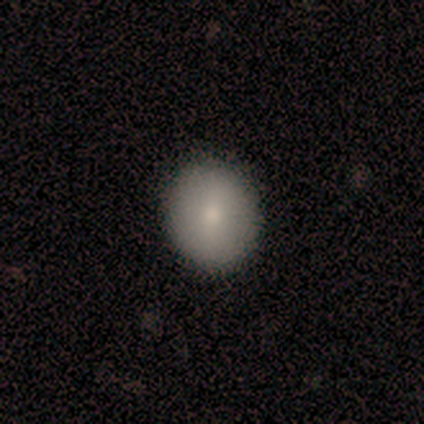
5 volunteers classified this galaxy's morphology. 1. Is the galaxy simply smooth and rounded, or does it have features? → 60% smooth, 20% featured or disk, 20% star or artifact.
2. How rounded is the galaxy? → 67% round, 33% in between, 0% cigar-shaped.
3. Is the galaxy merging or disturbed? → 100% none, 0% minor disturbance, 0% major disturbance, 0% merger.